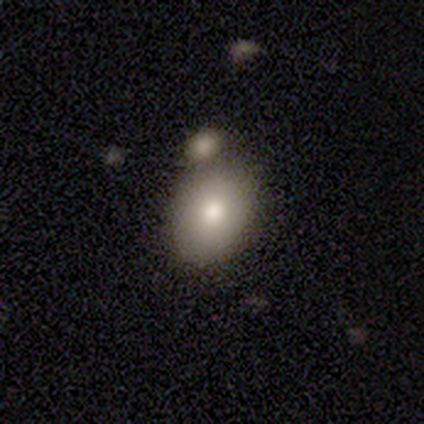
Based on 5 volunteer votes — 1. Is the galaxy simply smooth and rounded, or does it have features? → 100% smooth, 0% featured or disk, 0% star or artifact.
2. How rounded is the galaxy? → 60% in between, 40% round, 0% cigar-shaped.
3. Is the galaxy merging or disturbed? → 60% none, 20% major disturbance, 20% merger, 0% minor disturbance.